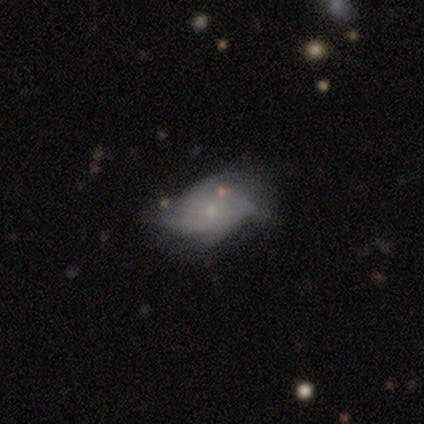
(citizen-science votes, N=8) Q: Smooth or featured?
A: featured or disk (50%); runner-up: smooth (38%)
Q: Edge-on disk?
A: no (100%)
Q: Bar?
A: no (75%); runner-up: weak (25%)
Q: Spiral arms?
A: yes (100%)
Q: Spiral winding?
A: medium (50%); runner-up: tight (25%)
Q: Spiral arm count?
A: 4 (75%); runner-up: can't tell (25%)
Q: Bulge size?
A: small (100%)
Q: Merging?
A: none (71%); runner-up: minor disturbance (29%)